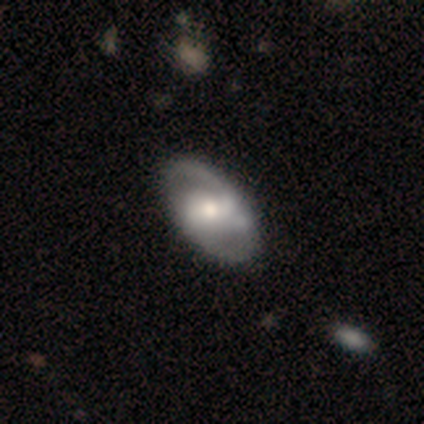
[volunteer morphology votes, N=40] This appears to be a featured or disk galaxy (72%) with a weak bar (43%), 2 (67%) medium (67%) spiral arms (86%) and a moderate central bulge (68%). Merging: none (51%).